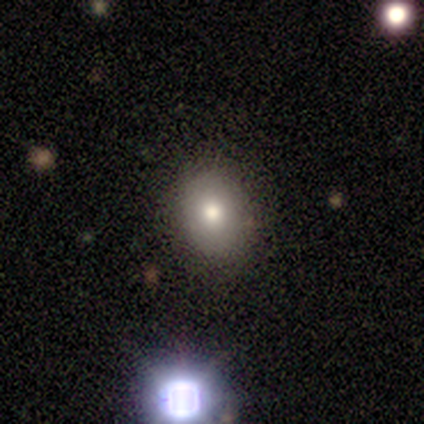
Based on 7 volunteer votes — Overall: smooth (100%). How rounded: in between (71%). Merging: none (71%).